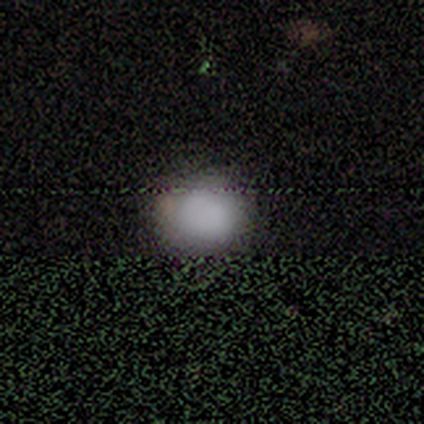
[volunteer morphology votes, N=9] Smooth or featured: smooth — 89% (star or artifact — 11%)
How rounded: round — 88% (in between — 12%)
Merging: none — 75% (minor disturbance — 25%)